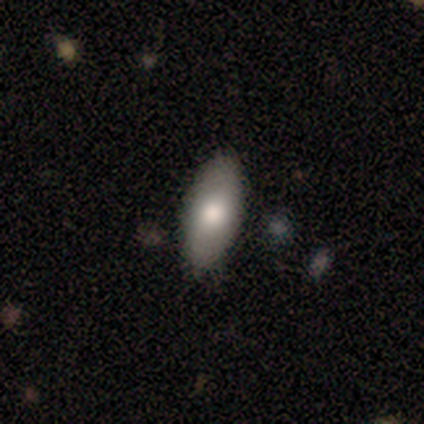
Overall: smooth (100%). How rounded: in between (75%). Merging: none (75%).